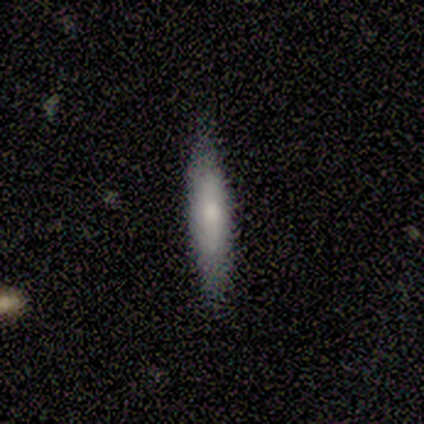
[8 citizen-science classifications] Q: Smooth or featured?
A: smooth (50%); tied with: featured or disk (50%)
Q: How rounded?
A: in between (50%); tied with: cigar-shaped (50%)
Q: Merging?
A: none (88%); runner-up: minor disturbance (12%)